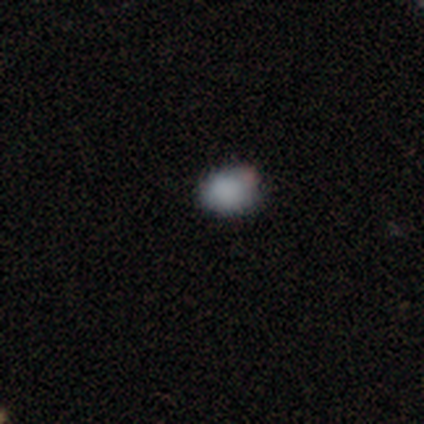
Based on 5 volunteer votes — Smooth or featured? 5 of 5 (100%) said smooth. How rounded? 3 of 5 (60%) said in between. Merging? 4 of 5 (80%) said none.